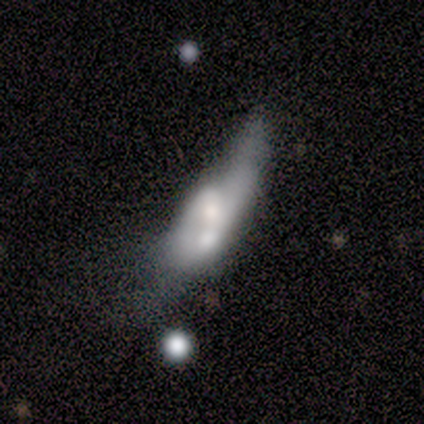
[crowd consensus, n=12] smooth_or_featured: smooth (p=0.58) [alt: featured or disk p=0.42]
how_rounded: in between (p=0.57) [alt: cigar-shaped p=0.43]
merging: merger (p=0.50) [alt: none p=0.25]